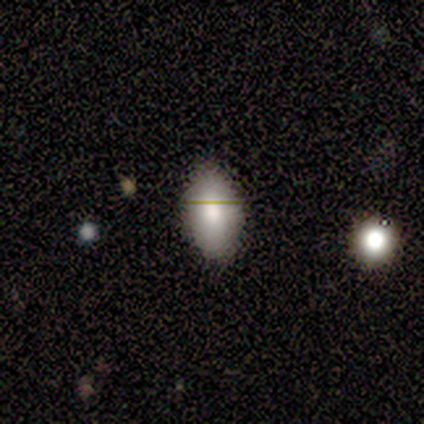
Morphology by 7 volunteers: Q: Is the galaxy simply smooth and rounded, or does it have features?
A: smooth — 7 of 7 (100%).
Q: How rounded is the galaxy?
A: in between — 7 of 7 (100%).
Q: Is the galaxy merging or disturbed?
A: none — 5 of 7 (71%).